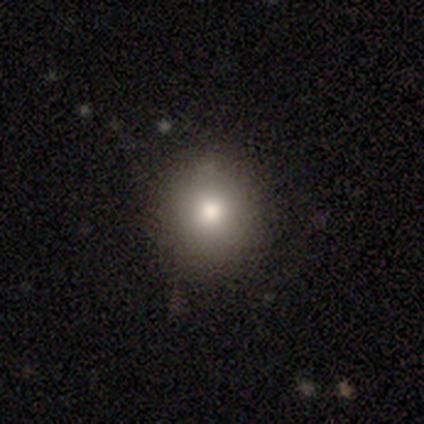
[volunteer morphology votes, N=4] Q: Smooth or featured?
A: smooth (75%); runner-up: featured or disk (25%)
Q: How rounded?
A: round (67%); runner-up: in between (33%)
Q: Merging?
A: none (100%)